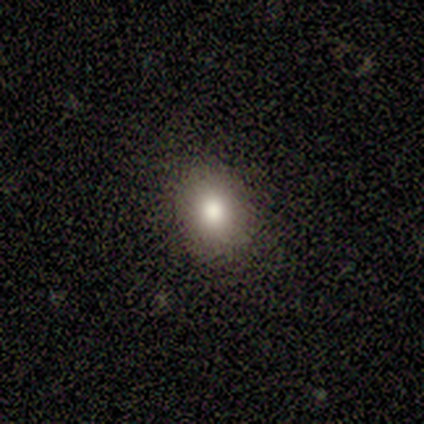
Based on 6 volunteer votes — Smooth or featured? 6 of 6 (100%) said smooth. How rounded? 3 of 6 (50%, tied with in between) said round. Merging? 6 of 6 (100%) said none.